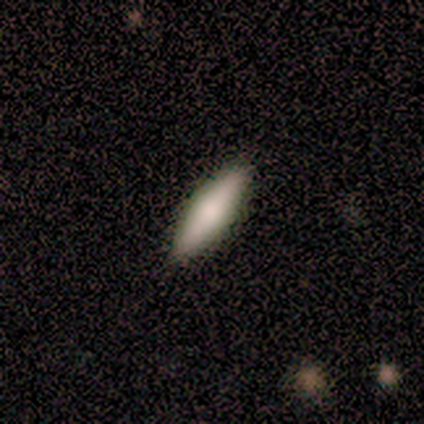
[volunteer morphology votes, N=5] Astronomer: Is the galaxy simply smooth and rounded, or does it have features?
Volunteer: smooth — 100%.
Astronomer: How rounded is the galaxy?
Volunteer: cigar-shaped — 60% (runner-up: in between, 40%).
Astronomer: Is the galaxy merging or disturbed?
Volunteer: none — 60%.